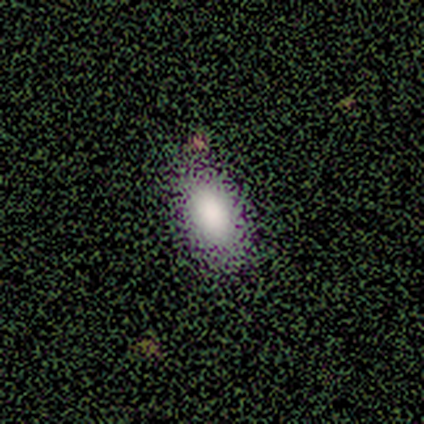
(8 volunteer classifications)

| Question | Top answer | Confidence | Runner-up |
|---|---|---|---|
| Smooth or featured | smooth | 88% | featured or disk (12%) |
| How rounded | in between | 100% | — |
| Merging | none | 88% | minor disturbance (12%) |